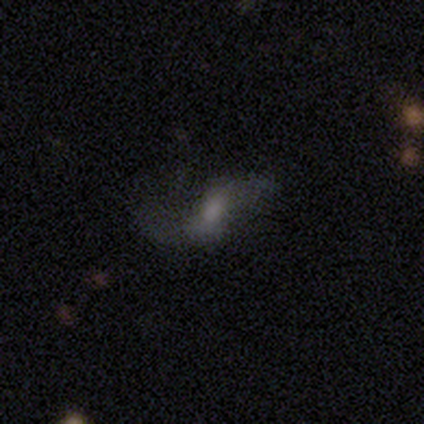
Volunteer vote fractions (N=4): This appears to be a smooth galaxy with no disk features (50%, tied with featured or disk) that is in between round and cigar-shaped (50%, tied with cigar-shaped). Merging: none (75%).